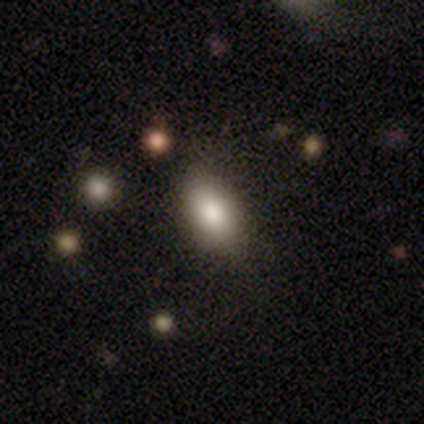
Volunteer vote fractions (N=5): Smooth or featured: smooth — 80% (star or artifact — 20%)
How rounded: in between — 100%
Merging: none — 75% (minor disturbance — 25%)